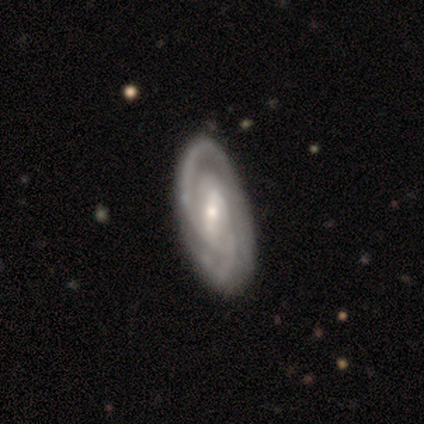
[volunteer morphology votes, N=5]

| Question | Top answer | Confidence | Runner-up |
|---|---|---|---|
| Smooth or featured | featured or disk | 100% | — |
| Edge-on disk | no | 100% | — |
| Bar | strong | 60% | weak (40%) |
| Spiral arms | yes | 100% | — |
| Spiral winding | medium | 60% | tight (40%) |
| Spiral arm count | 2 | 60% | 3 (20%) |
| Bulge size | moderate | 60% | small (40%) |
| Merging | none | 100% | — |